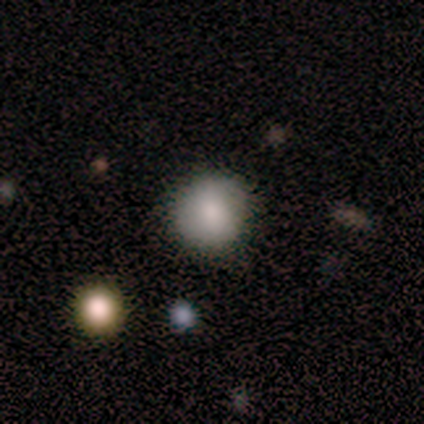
Q: Smooth or featured?
A: smooth (100%)
Q: How rounded?
A: round (100%)
Q: Merging?
A: none (100%)